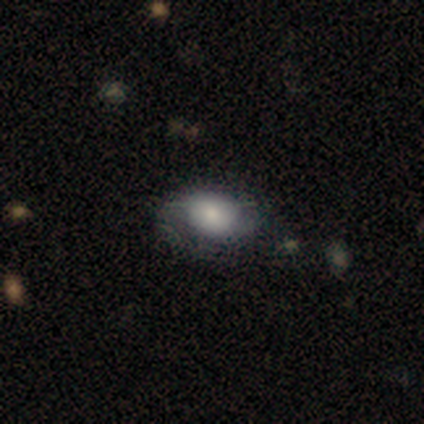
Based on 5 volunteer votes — smooth_or_featured: smooth (p=0.80) [alt: featured or disk p=0.20]
how_rounded: round (p=0.50) [tied with: in between p=0.50]
merging: none (p=1.00)